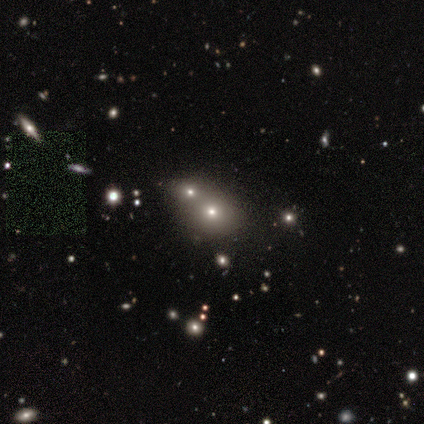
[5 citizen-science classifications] Smooth or featured?
  - star or artifact: 60% *
  - smooth: 40%
  - featured or disk: 0%